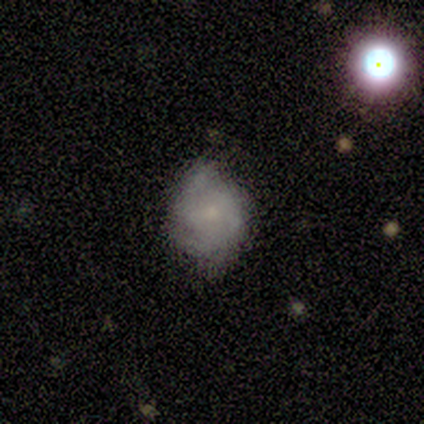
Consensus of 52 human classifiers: Smooth or featured: smooth — 52% (featured or disk — 38%)
How rounded: round — 59% (in between — 41%)
Merging: none — 57% (minor disturbance — 36%)